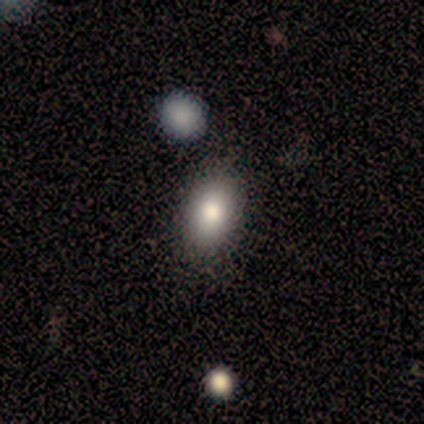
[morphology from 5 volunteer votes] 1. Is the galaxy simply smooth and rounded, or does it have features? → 80% smooth, 20% star or artifact, 0% featured or disk.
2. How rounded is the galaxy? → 100% in between, 0% round, 0% cigar-shaped.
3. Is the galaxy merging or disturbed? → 100% none, 0% minor disturbance, 0% major disturbance, 0% merger.